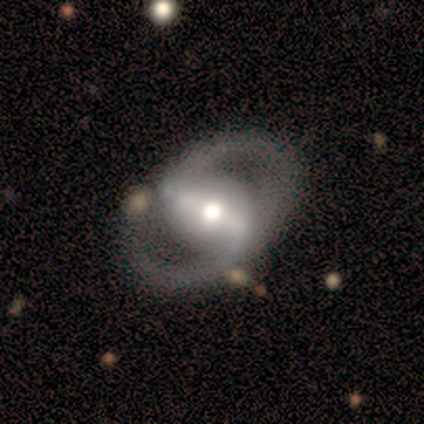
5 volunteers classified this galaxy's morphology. smooth_or_featured: featured or disk (p=1.00)
disk_edge_on: no (p=1.00)
bar: strong (p=0.80) [alt: weak p=0.20]
has_spiral_arms: yes (p=0.80) [alt: no p=0.20]
spiral_winding: tight (p=0.50) [tied with: medium p=0.50]
spiral_arm_count: 2 (p=1.00)
bulge_size: moderate (p=0.60) [alt: small p=0.40]
merging: none (p=0.80) [alt: minor disturbance p=0.20]